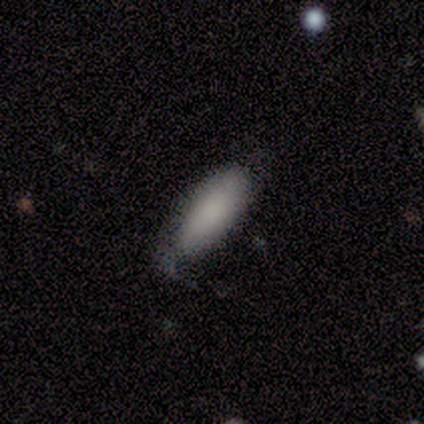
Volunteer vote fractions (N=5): Smooth or featured: smooth — 100%
How rounded: in between — 60% (cigar-shaped — 40%)
Merging: minor disturbance — 80% (none — 20%)